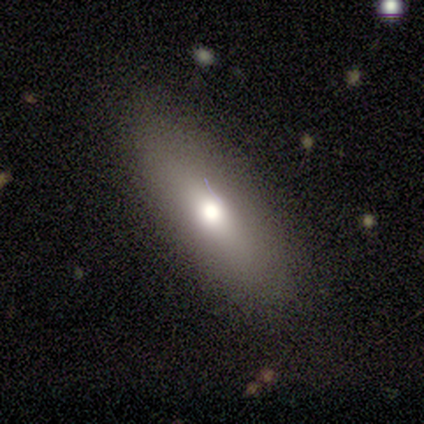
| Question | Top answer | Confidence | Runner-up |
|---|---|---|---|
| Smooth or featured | smooth | 60% | featured or disk (40%) |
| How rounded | in between | 100% | — |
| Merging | none | 100% | — |